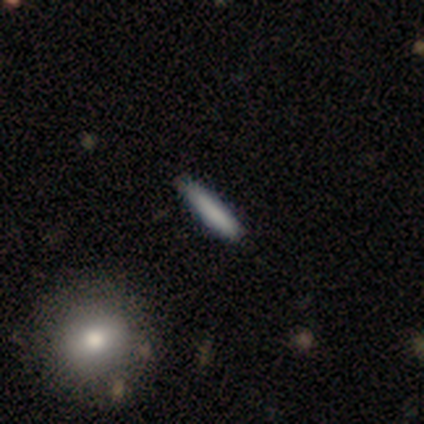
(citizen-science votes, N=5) Smooth or featured?
  - smooth: 60% *
  - featured or disk: 40%
  - star or artifact: 0%
How rounded?
  - cigar-shaped: 67% *
  - in between: 33%
  - round: 0%
Merging?
  - none: 60% *
  - major disturbance: 20%
  - merger: 20%
  - minor disturbance: 0%